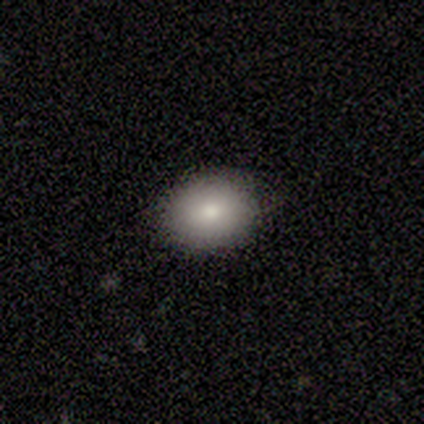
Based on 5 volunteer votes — Smooth or featured? 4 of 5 (80%) said smooth. How rounded? 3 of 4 (75%) said in between. Merging? 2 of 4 (50%, tied with minor disturbance) said none.